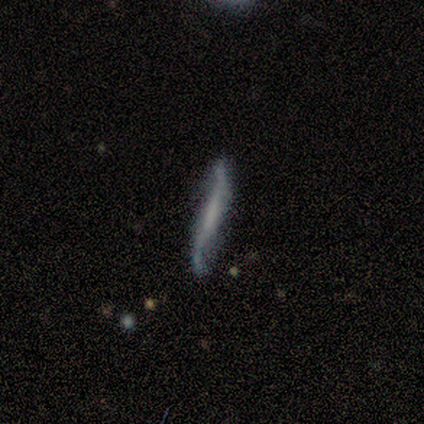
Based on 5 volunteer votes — smooth_or_featured: featured or disk (p=0.80) [alt: smooth p=0.20]
disk_edge_on: no (p=1.00)
bar: no (p=0.50) [alt: strong p=0.25]
has_spiral_arms: yes (p=0.75) [alt: no p=0.25]
spiral_winding: loose (p=1.00)
spiral_arm_count: 2 (p=1.00)
bulge_size: none (p=0.75) [alt: small p=0.25]
merging: none (p=0.60) [alt: minor disturbance p=0.40]